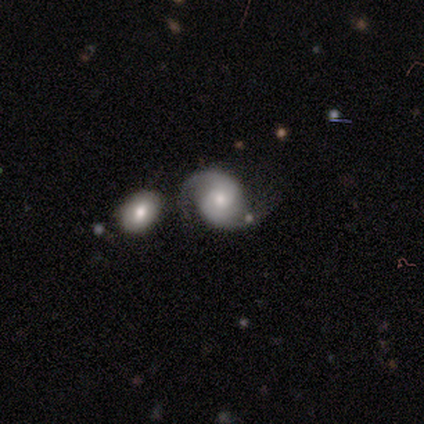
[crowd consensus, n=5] Smooth or featured? featured or disk (80%)
Edge-on disk? no (100%)
Bar? no (75%)
Spiral arms? yes (100%)
Spiral winding? medium (100%)
Spiral arm count? 2 (100%)
Bulge size? moderate (75%)
Merging? none (80%)